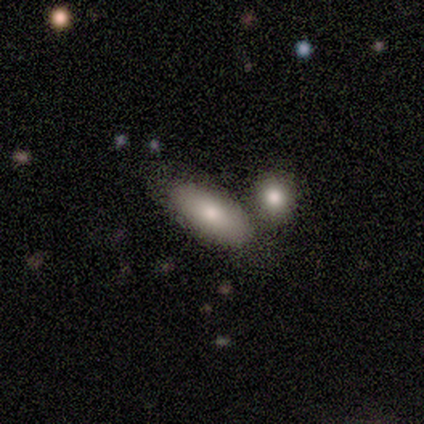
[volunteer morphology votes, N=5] smooth_or_featured: smooth (p=0.80) [alt: featured or disk p=0.20]
how_rounded: in between (p=1.00)
merging: none (p=0.80) [alt: merger p=0.20]